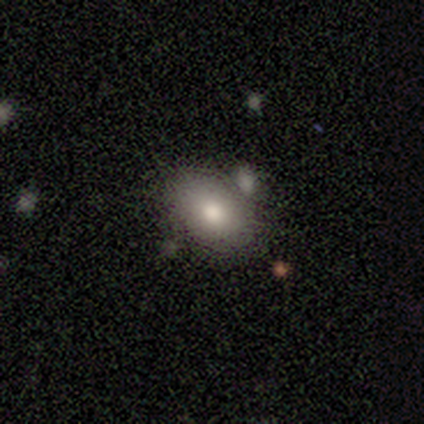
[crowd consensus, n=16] A smooth galaxy with no disk features (88%) that is in between round and cigar-shaped (71%).

Vote fractions:
- Smooth or featured? smooth: 88% / featured or disk: 12% / star or artifact: 0%
- How rounded? in between: 71% / round: 29% / cigar-shaped: 0%
- Merging? none: 62% / minor disturbance: 19% / merger: 12% / major disturbance: 6%